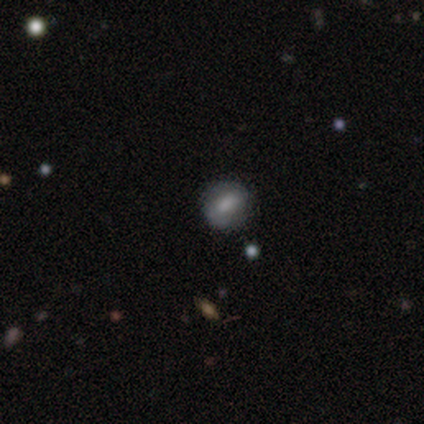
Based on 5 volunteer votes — A smooth galaxy with no disk features (80%) that is round (100%). Merging: none (80%).